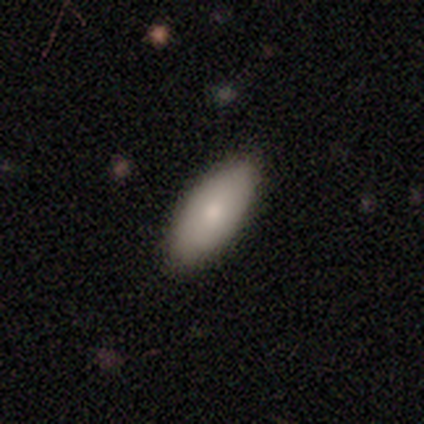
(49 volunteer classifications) Smooth or featured?
  - smooth: 90% *
  - featured or disk: 6%
  - star or artifact: 4%
How rounded?
  - in between: 89% *
  - cigar-shaped: 9%
  - round: 2%
Merging?
  - none: 83% *
  - minor disturbance: 13%
  - major disturbance: 4%
  - merger: 0%